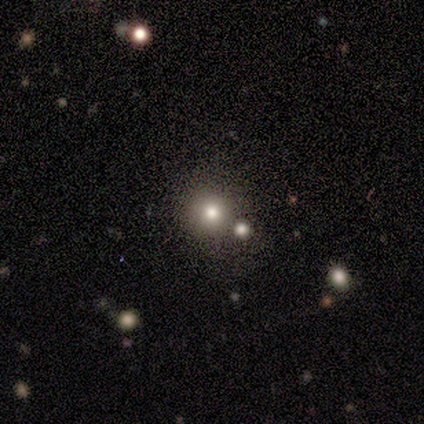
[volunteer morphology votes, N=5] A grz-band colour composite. It shows a smooth galaxy with no disk features (80%) that is round (100%). Merging: none (80%).